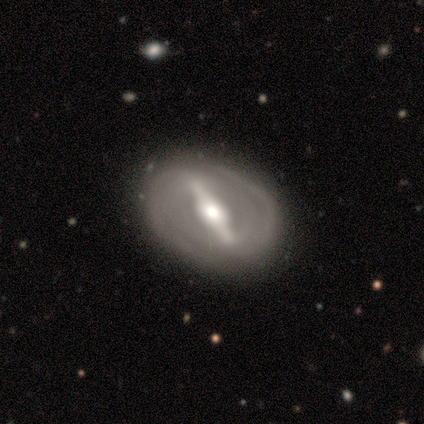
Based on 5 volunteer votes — Smooth or featured? 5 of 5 (100%) said featured or disk. Edge-on disk? 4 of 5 (80%) said no. Bar? 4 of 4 (100%) said strong. Spiral arms? 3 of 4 (75%) said yes. Spiral winding? 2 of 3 (67%) said tight. Spiral arm count? 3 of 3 (100%) said 2. Bulge size? 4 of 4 (100%) said moderate. Merging? 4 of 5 (80%) said none.